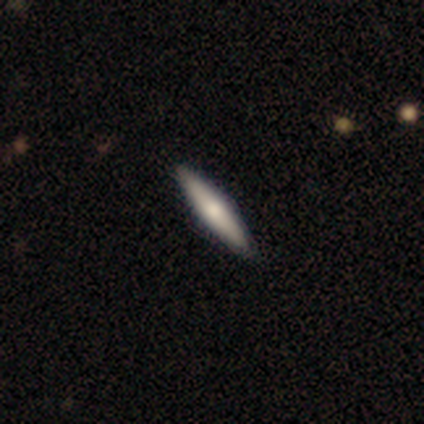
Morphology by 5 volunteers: smooth 80%, featured or disk 20%, star or artifact 0%. Down the decision tree: how rounded — cigar-shaped (100%); merging — none (80%).